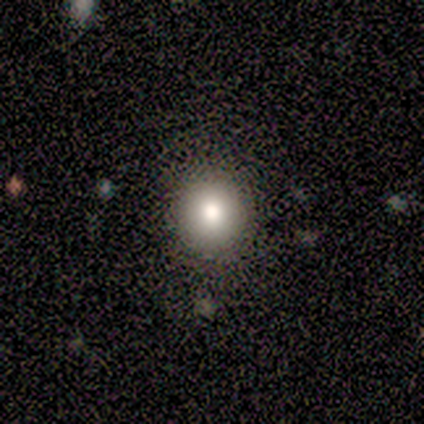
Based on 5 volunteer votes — This appears to be a smooth galaxy with no disk features (80%) that is round (75%). Merging: none (100%).